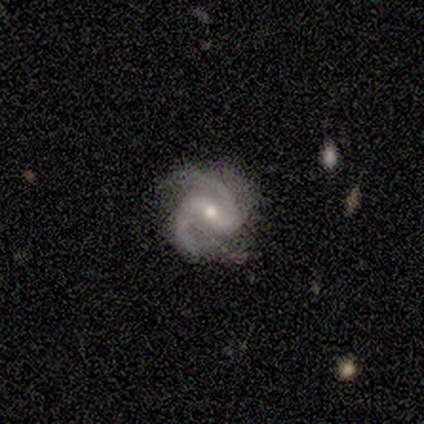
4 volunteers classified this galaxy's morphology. Smooth or featured? featured or disk (100%)
Edge-on disk? no (100%)
Bar? weak (75%)
Spiral arms? yes (100%)
Spiral winding? tight (50%)
Spiral arm count? 2 (100%)
Bulge size? small (75%)
Merging? none (50%, tied with minor disturbance)